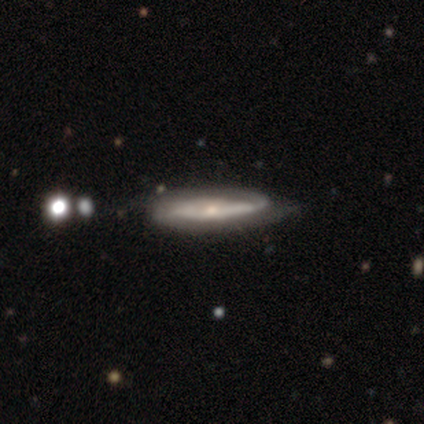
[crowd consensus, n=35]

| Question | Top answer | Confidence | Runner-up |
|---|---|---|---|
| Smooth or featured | featured or disk | 74% | smooth (17%) |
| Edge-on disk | no | 73% | yes (27%) |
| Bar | no | 47% | weak (37%) |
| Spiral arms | yes | 100% | — |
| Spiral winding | tight | 42% | medium (32%) |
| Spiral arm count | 2 | 47% | 1 (26%) |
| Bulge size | small | 53% | moderate (37%) |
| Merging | none | 59% | minor disturbance (19%) |